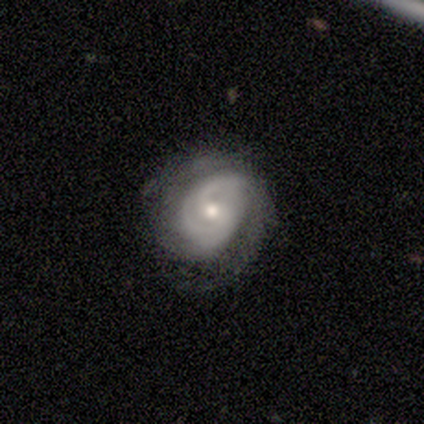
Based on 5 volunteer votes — This is clearly a featured or disk galaxy (80%). It is likely not viewed edge-on (75%). Bar: likely no (67%). Spiral arm pattern: clearly yes (100%). Spiral arm count: likely can't tell (67%). Spiral winding: marginally tight (33%, tied with medium and loose). Central bulge: likely moderate (67%). Merging: likely minor disturbance (60%).